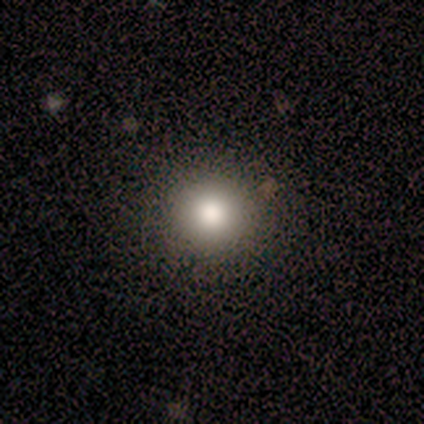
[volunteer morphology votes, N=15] Q: Smooth or featured?
A: smooth (73%); runner-up: star or artifact (20%)
Q: How rounded?
A: round (100%)
Q: Merging?
A: none (100%)